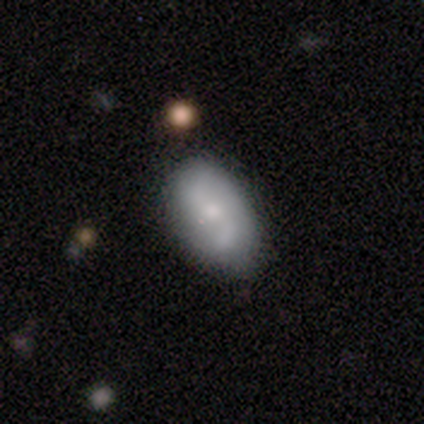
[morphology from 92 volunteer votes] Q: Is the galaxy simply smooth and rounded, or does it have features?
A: featured or disk — 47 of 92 (51%).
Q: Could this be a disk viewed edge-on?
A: no — 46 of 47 (98%).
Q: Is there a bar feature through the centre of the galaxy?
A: no — 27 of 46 (59%).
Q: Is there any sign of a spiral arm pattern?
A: yes — 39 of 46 (85%).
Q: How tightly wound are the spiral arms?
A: loose — 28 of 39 (72%).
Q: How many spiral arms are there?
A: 2 — 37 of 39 (95%).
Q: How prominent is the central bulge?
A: small — 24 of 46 (52%).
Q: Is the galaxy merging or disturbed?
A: none — 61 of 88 (69%).